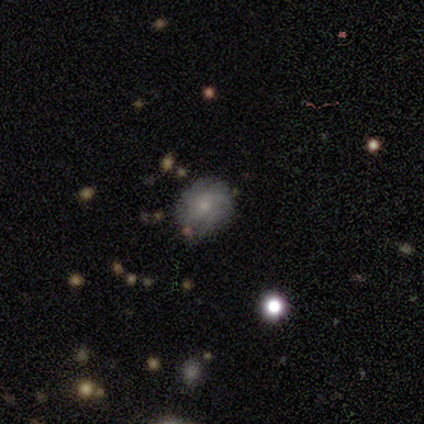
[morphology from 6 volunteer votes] smooth-or-featured: smooth: 50% (tied) | featured or disk: 50% (tied) | star or artifact: 0%
  how-rounded: round: 100% | in between: 0% | cigar-shaped: 0%
  merging: none: 83% | major disturbance: 17% | minor disturbance: 0% | merger: 0%